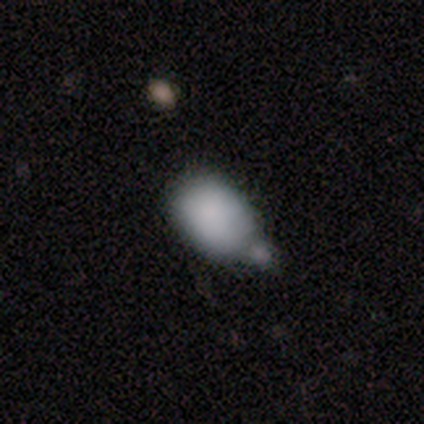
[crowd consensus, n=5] smooth-or-featured: smooth: 60% | featured or disk: 40% | star or artifact: 0%
  how-rounded: in between: 100% | round: 0% | cigar-shaped: 0%
  merging: merger: 40% | none: 20% | minor disturbance: 20% | major disturbance: 20%